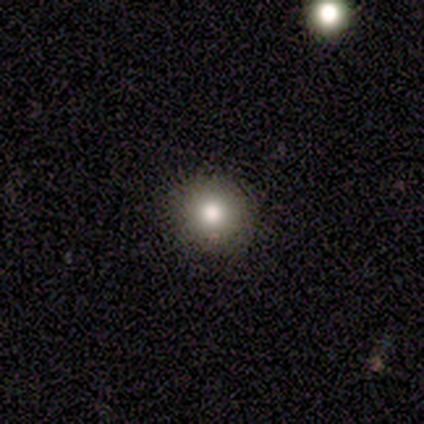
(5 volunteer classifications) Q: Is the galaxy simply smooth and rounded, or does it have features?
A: smooth — 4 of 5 (80%).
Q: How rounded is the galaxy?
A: round — 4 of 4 (100%).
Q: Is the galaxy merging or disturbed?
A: none — 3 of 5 (60%).